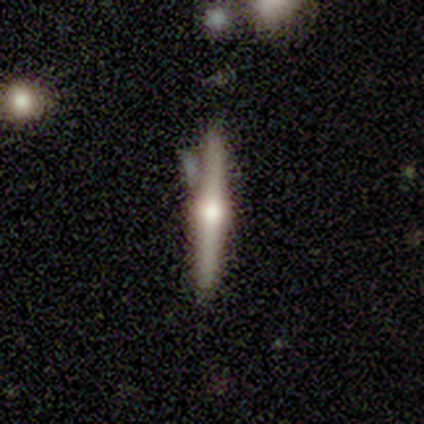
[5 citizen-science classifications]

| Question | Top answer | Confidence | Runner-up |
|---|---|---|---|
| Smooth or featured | featured or disk | 80% | smooth (20%) |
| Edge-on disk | yes | 100% | — |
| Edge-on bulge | rounded | 100% | — |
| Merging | none | 60% | minor disturbance (40%) |